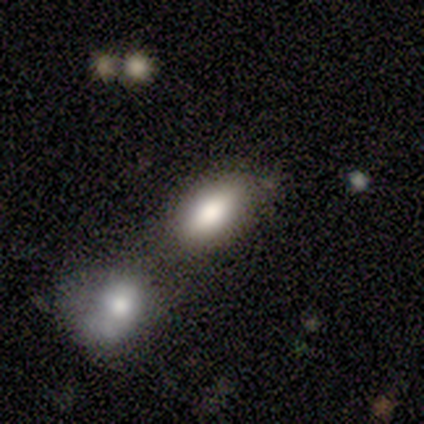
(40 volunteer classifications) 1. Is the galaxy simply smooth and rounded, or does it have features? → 80% smooth, 15% star or artifact, 5% featured or disk.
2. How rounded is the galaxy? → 88% in between, 6% round, 6% cigar-shaped.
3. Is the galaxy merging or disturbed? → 50% none, 32% merger, 15% minor disturbance, 3% major disturbance.